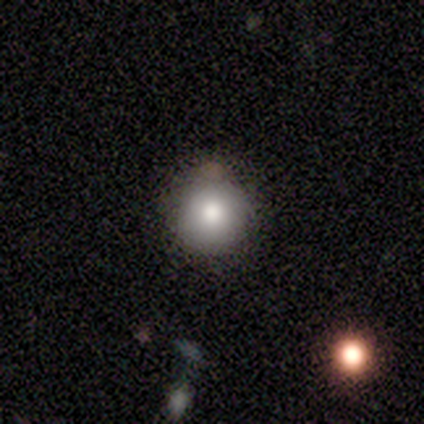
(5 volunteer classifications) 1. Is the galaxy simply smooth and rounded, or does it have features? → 80% smooth, 20% star or artifact, 0% featured or disk.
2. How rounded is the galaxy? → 100% round, 0% in between, 0% cigar-shaped.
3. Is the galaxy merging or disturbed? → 100% none, 0% minor disturbance, 0% major disturbance, 0% merger.